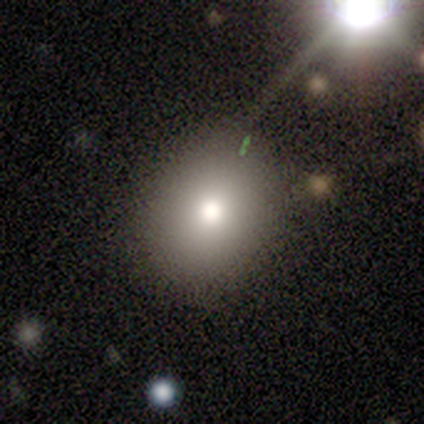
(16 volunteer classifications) This is clearly a smooth galaxy (88%). How rounded: likely round (79%). Merging: clearly none (87%).